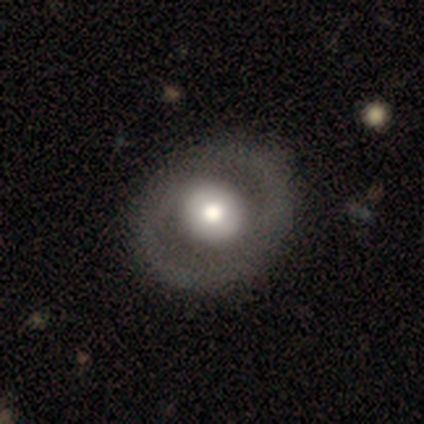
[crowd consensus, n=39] Smooth or featured: featured or disk — 59% (smooth — 38%)
Edge-on disk: no — 100%
Bar: no — 83% (weak — 13%)
Spiral arms: no — 57% (yes — 43%)
Bulge size: moderate — 52% (large — 35%)
Merging: none — 58% (minor disturbance — 8%)